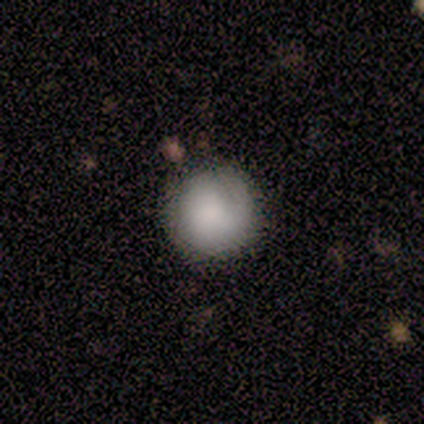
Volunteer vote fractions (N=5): A smooth galaxy with no disk features (100%) that is round (100%).

Vote fractions:
- Smooth or featured? smooth: 100% / featured or disk: 0% / star or artifact: 0%
- How rounded? round: 100% / in between: 0% / cigar-shaped: 0%
- Merging? none: 100% / minor disturbance: 0% / major disturbance: 0% / merger: 0%